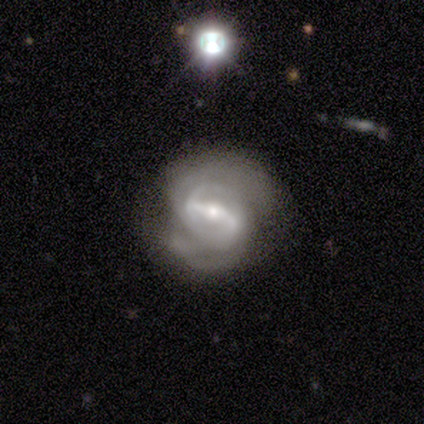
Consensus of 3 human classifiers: Volunteers were most divided on "spiral winding" (2-way tie): tight: 50%, medium: 50%, loose: 0%; "merging" (3-way tie): none: 33%, minor disturbance: 33%, major disturbance: 33%, merger: 0%. More confident: edge-on disk — no (100%); bar — strong (100%); spiral arms — yes (100%); spiral arm count — 2 (100%); bulge size — moderate (100%); smooth or featured — featured or disk (67%).